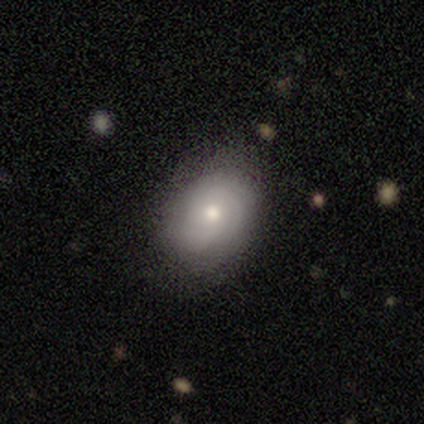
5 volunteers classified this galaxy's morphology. This is likely a smooth galaxy (60%). How rounded: likely in between (67%). Merging: likely none (60%).